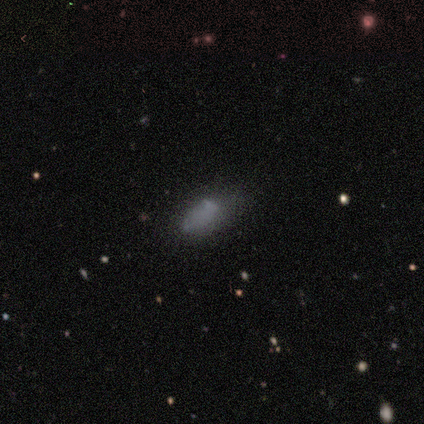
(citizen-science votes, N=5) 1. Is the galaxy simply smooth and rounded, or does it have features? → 40% smooth (tied), 40% featured or disk (tied), 20% star or artifact.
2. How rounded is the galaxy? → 100% in between, 0% round, 0% cigar-shaped.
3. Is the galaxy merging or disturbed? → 50% minor disturbance, 25% none, 25% major disturbance, 0% merger.